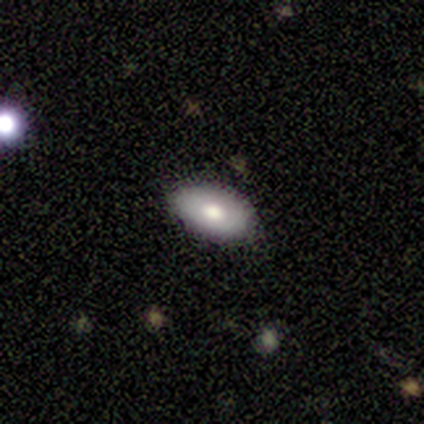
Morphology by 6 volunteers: Q: Smooth or featured?
A: smooth (100%)
Q: How rounded?
A: in between (83%); runner-up: round (17%)
Q: Merging?
A: none (100%)